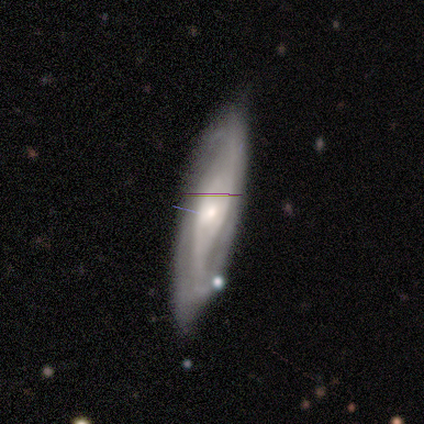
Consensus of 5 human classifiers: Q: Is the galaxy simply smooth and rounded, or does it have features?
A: featured or disk — 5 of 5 (100%).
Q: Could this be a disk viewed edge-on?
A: no — 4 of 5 (80%).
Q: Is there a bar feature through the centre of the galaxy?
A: no — 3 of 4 (75%).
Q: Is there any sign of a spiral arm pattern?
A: yes — 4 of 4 (100%).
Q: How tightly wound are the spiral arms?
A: tight — 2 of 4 (50%).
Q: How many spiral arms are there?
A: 2 — 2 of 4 (50%, tied with can't tell).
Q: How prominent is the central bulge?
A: small — 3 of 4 (75%).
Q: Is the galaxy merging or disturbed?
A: none — 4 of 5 (80%).